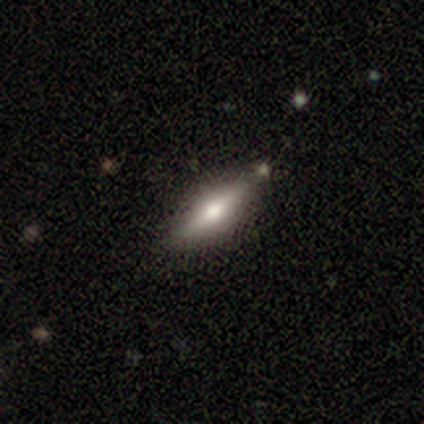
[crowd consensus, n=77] smooth_or_featured: featured or disk (p=0.52) [alt: smooth p=0.44]
disk_edge_on: yes (p=0.95) [alt: no p=0.05]
edge_on_bulge: rounded (p=0.92) [alt: none p=0.05]
merging: none (p=0.41) [alt: merger p=0.08]